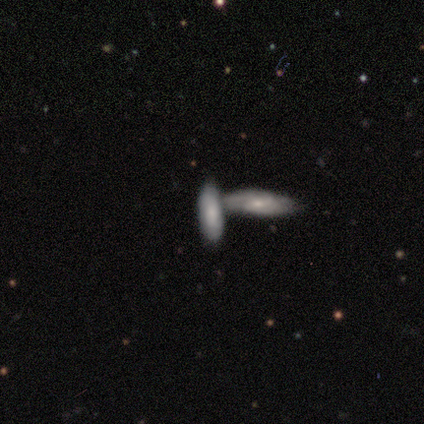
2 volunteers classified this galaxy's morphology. smooth 100%, featured or disk 0%, star or artifact 0%. Down the decision tree: how rounded — in between (50%, tied with cigar-shaped); merging — none (50%, tied with merger).